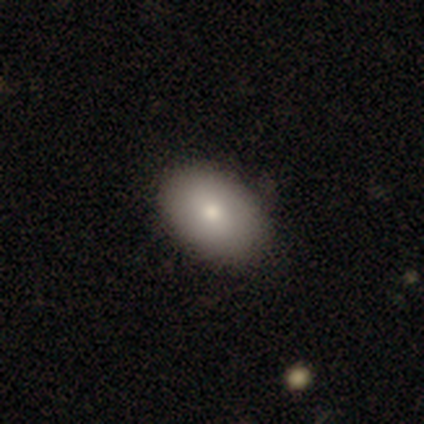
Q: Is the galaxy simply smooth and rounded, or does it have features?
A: smooth — 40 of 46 (87%).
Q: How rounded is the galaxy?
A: in between — 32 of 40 (80%).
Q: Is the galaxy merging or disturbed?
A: none — 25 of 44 (57%).